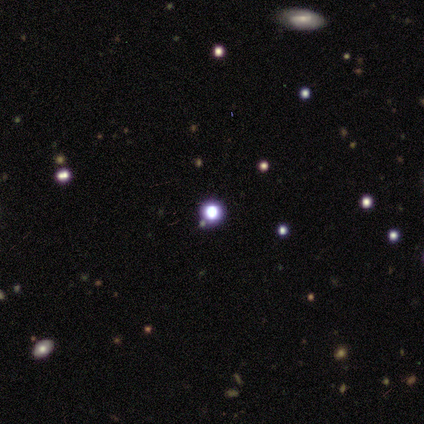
Overall: star or artifact (100%).